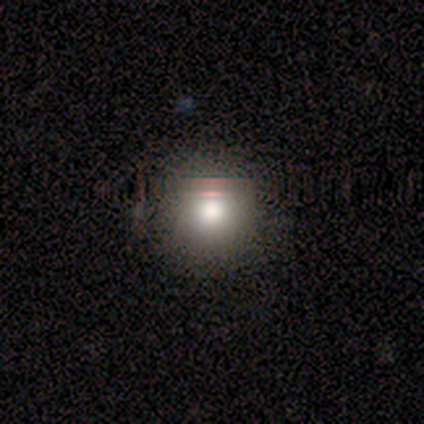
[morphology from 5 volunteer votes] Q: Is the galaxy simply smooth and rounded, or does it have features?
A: smooth — 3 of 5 (60%).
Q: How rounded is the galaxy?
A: round — 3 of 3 (100%).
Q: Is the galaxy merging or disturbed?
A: none — 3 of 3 (100%).